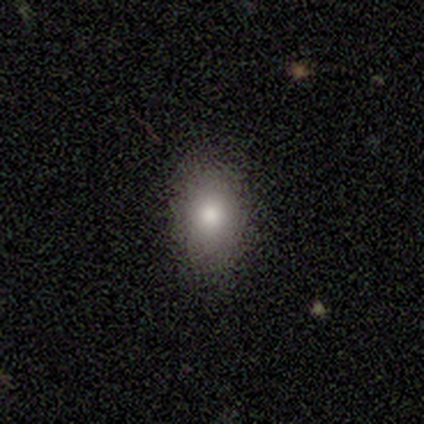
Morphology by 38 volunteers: This is likely a smooth galaxy (68%). How rounded: likely in between (77%). Merging: clearly none (81%).